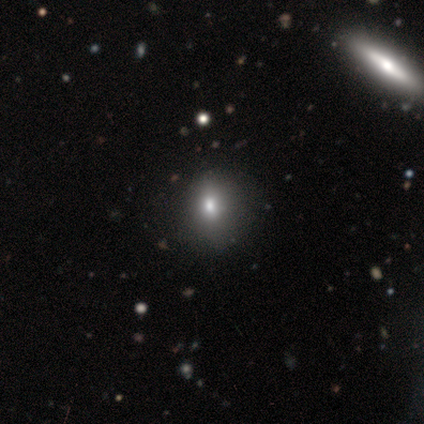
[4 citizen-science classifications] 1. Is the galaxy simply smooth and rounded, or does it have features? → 50% smooth (tied), 50% featured or disk (tied), 0% star or artifact.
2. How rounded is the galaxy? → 50% round (tied), 50% in between (tied), 0% cigar-shaped.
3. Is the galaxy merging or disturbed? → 100% none, 0% minor disturbance, 0% major disturbance, 0% merger.